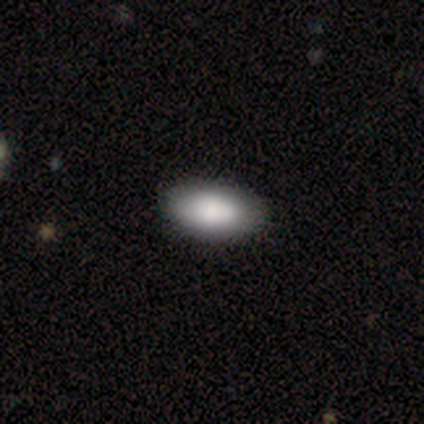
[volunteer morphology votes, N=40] Overall: smooth (80%). How rounded: in between (94%). Merging: none (76%).